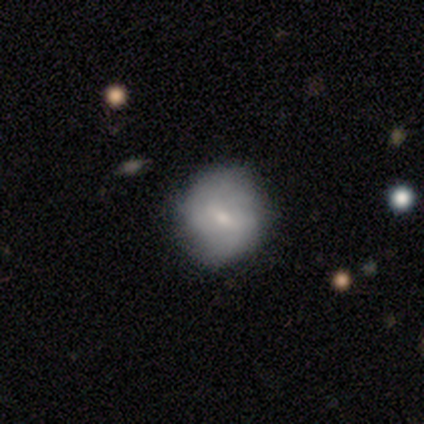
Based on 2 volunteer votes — This appears to be a smooth galaxy with no disk features (100%) that is round (100%). Merging: none (50%, tied with minor disturbance).